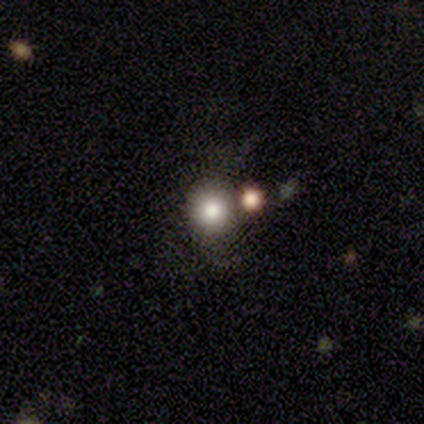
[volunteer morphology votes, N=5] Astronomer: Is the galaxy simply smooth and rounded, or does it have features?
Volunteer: smooth — 80%.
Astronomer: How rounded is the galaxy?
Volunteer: round — 100%.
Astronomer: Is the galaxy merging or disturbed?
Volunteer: none — 60% (runner-up: merger, 40%).